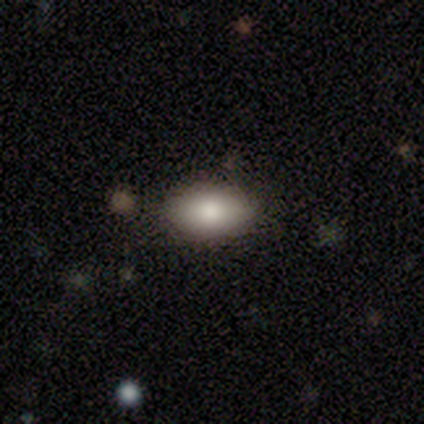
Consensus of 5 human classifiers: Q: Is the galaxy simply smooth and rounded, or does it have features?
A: smooth — 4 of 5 (80%).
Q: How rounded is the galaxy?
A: in between — 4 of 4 (100%).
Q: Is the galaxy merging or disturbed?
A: none — 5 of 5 (100%).